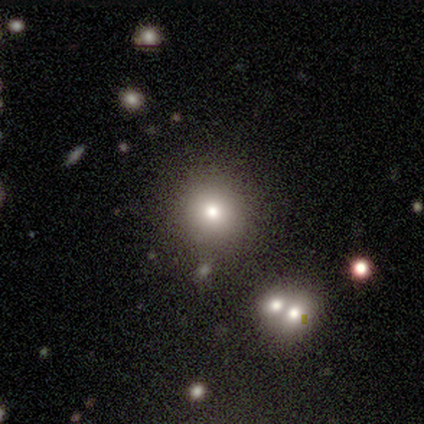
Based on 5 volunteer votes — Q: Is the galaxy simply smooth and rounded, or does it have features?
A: smooth — 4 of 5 (80%).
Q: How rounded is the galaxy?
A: round — 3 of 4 (75%).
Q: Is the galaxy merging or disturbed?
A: none — 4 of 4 (100%).